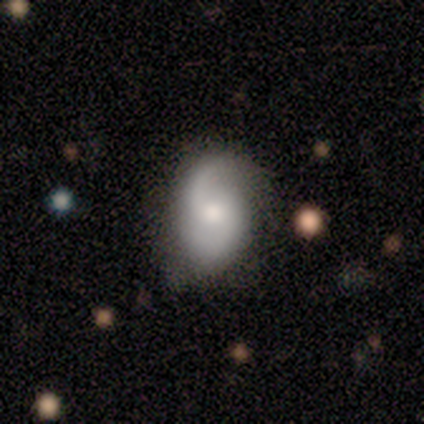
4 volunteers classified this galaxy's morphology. This appears to be a featured or disk galaxy (75%) with no bar (100%), 2 (67%) loose (100%) spiral arms (100%) and a moderate central bulge (67%). Merging: none (75%).